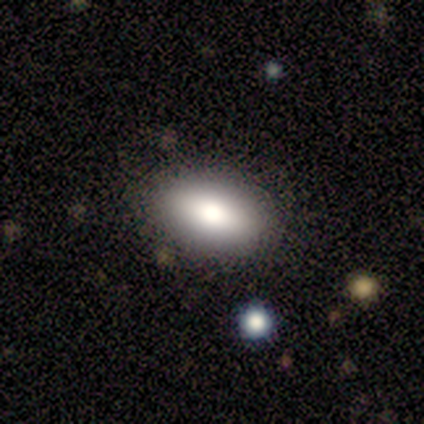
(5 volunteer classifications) Overall: smooth (80%). How rounded: in between (100%). Merging: none (75%).